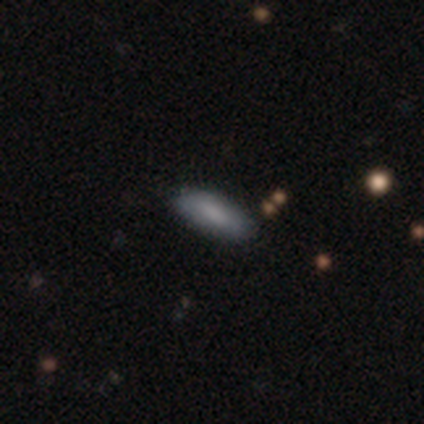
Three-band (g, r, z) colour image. It shows a smooth galaxy with no disk features (90%) that is in between round and cigar-shaped (78%). Merging: none (67%).